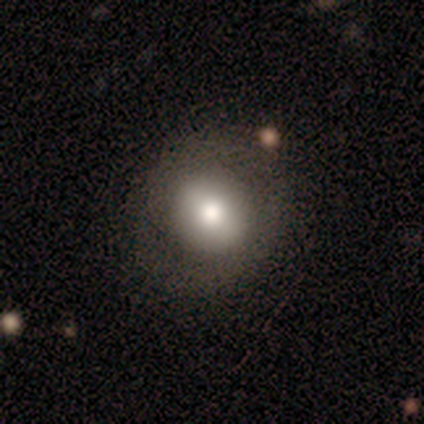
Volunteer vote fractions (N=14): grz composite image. It shows a smooth galaxy with no disk features (57%) that is round (62%). Merging: none (75%).